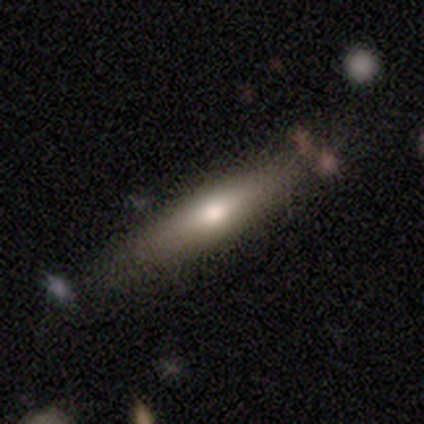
Smooth or featured? smooth (60%)
How rounded? cigar-shaped (100%)
Merging? none (100%)